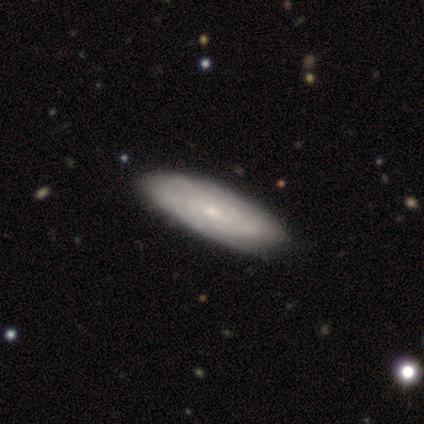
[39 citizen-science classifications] Volunteers were most divided on "spiral arm count": can't tell: 45%, 2: 31%, 3: 17%, 4: 3%, more than 4: 3%, 1: 0%. More confident: edge-on disk — no (91%); spiral arms — yes (91%); smooth or featured — featured or disk (90%); spiral winding — tight (90%); bulge size — small (84%); bar — no (75%); merging — none (66%).